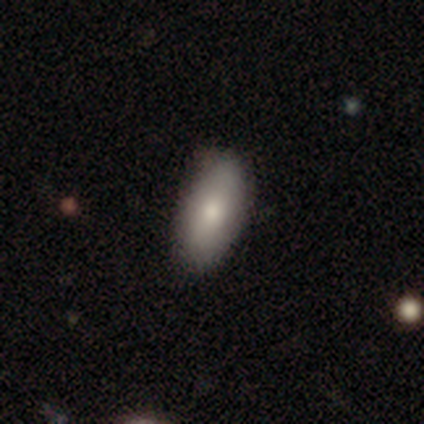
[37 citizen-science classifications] Smooth or featured? smooth (81%)
How rounded? in between (90%)
Merging? none (77%)